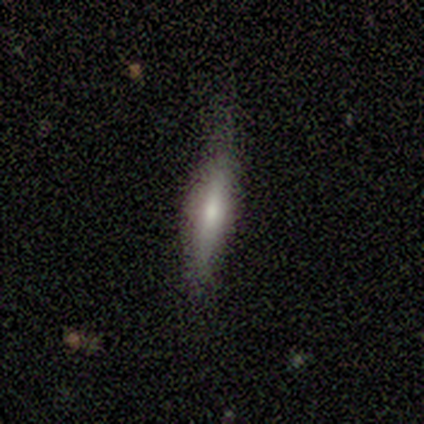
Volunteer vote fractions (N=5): Volunteers were most divided on "smooth or featured": smooth: 60%, featured or disk: 40%, star or artifact: 0%. More confident: how rounded — cigar-shaped (100%); merging — none (100%).